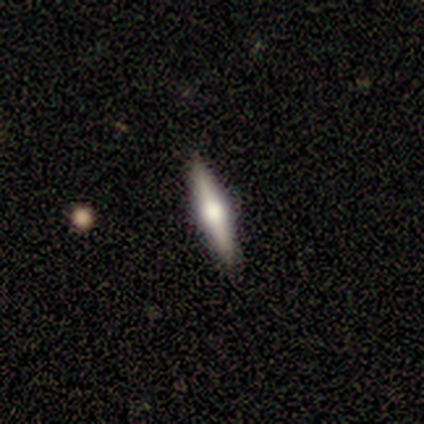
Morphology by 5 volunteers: Smooth or featured? featured or disk (100%)
Edge-on disk? yes (100%)
Edge-on bulge? rounded (100%)
Merging? none (60%)